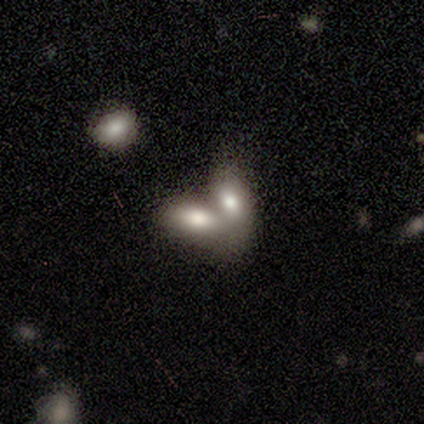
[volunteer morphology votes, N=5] This appears to be a smooth galaxy with no disk features (80%) that is in between round and cigar-shaped (75%). Merging: merger (80%).